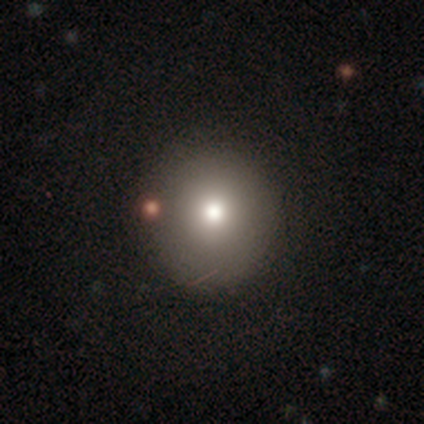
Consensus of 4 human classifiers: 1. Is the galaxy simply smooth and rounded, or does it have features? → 75% smooth, 25% featured or disk, 0% star or artifact.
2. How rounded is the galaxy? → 67% round, 33% in between, 0% cigar-shaped.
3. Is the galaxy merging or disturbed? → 100% none, 0% minor disturbance, 0% major disturbance, 0% merger.